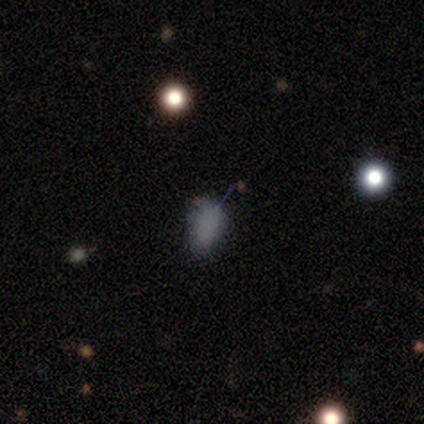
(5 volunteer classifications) A smooth galaxy with no disk features (80%) that is in between round and cigar-shaped (100%). Merging: none (50%, tied with minor disturbance).